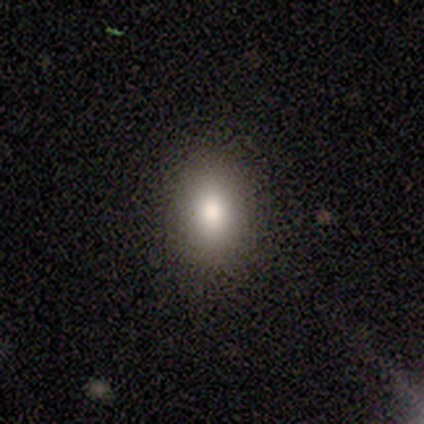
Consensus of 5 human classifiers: Smooth or featured: smooth — 60% (featured or disk — 20%)
How rounded: in between — 100%
Merging: none — 75% (major disturbance — 25%)